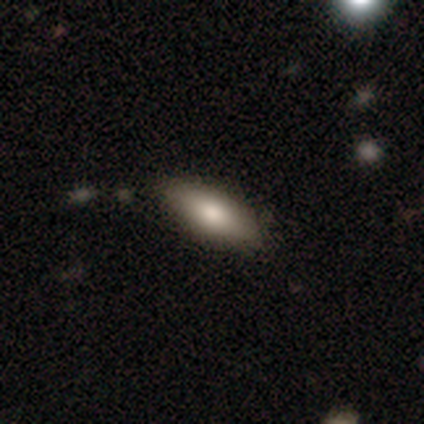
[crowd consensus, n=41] Morphology: type=smooth (66%); roundness=in between (70%); merging=none (88%).